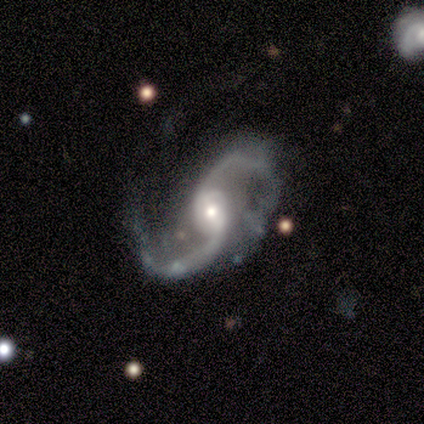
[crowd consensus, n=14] A featured or disk galaxy (100%) with a weak bar (64%), 2 (100%) loose (62%) spiral arms (93%) and a small central bulge (50%). Merging: none (50%).